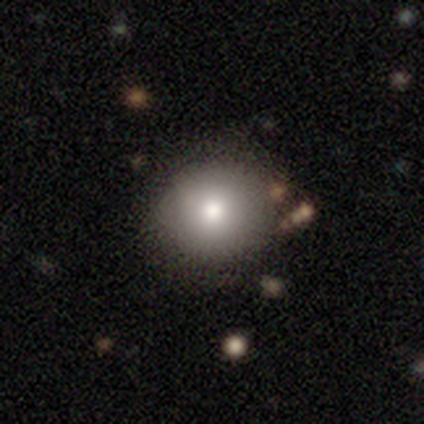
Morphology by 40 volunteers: Smooth or featured? smooth (70%)
How rounded? round (86%)
Merging? none (85%)